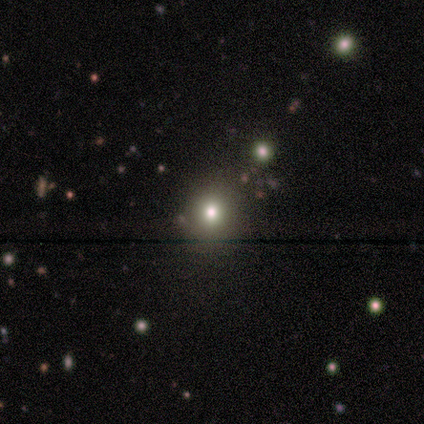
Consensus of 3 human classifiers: Smooth or featured: smooth — 67% (star or artifact — 33%)
How rounded: in between — 100%
Merging: none — 100%